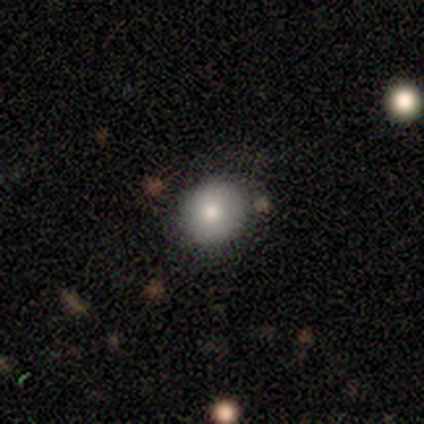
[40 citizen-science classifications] A smooth galaxy with no disk features (80%) that is round (91%). Merging: none (89%).